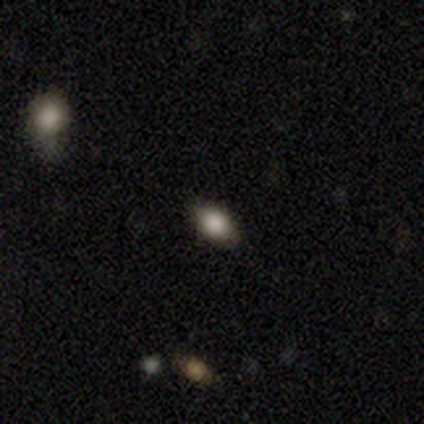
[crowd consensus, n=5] A smooth galaxy with no disk features (100%) that is in between round and cigar-shaped (100%).

Vote fractions:
- Smooth or featured? smooth: 100% / featured or disk: 0% / star or artifact: 0%
- How rounded? in between: 100% / round: 0% / cigar-shaped: 0%
- Merging? none: 100% / minor disturbance: 0% / major disturbance: 0% / merger: 0%